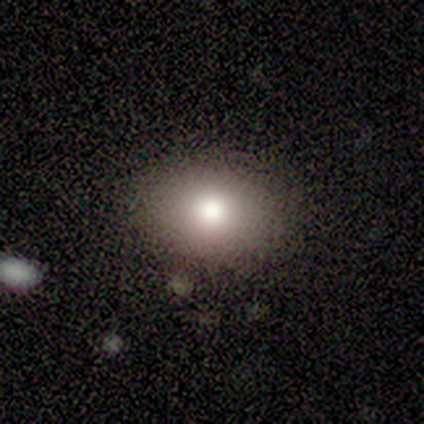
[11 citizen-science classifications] smooth-or-featured: smooth: 82% | featured or disk: 9% | star or artifact: 9%
  how-rounded: round: 44% (tied) | in between: 44% (tied) | cigar-shaped: 11%
  merging: none: 80% | minor disturbance: 20% | major disturbance: 0% | merger: 0%